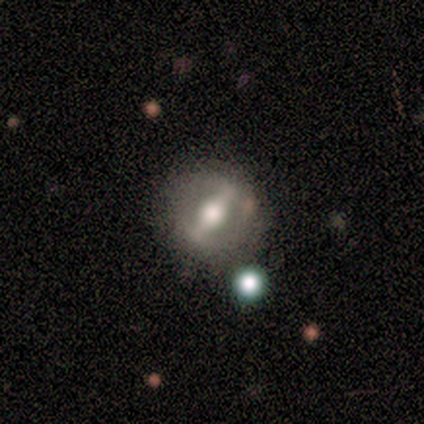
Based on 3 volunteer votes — Smooth or featured: star or artifact — 67% (featured or disk — 33%)